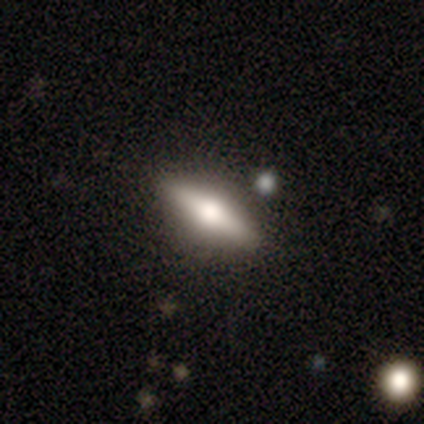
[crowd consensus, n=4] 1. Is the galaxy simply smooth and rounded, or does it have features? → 75% smooth, 25% featured or disk, 0% star or artifact.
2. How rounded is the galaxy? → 100% cigar-shaped, 0% round, 0% in between.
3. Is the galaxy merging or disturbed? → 100% none, 0% minor disturbance, 0% major disturbance, 0% merger.